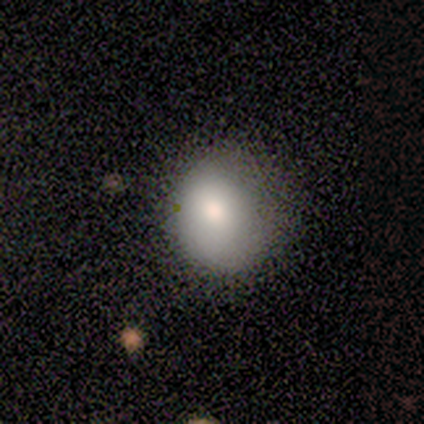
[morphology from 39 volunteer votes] Volunteers were most divided on "how rounded": round: 53%, in between: 47%, cigar-shaped: 0%. Remaining: smooth or featured — smooth (77%); merging — none (42%).